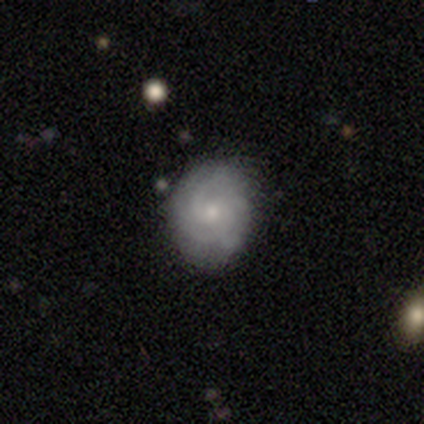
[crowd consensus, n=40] Overall: featured or disk (72%). Edge-on disk: no (100%). Bar: no (69%). Spiral arms: yes (90%). Spiral arm count: 3 (35%, tied with can't tell). Spiral winding: tight (65%; medium 27%). Bulge size: small (66%). Merging: none (73%).